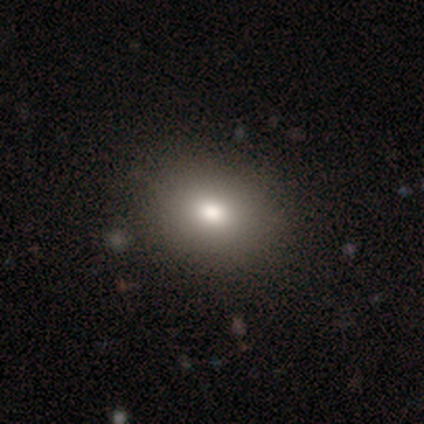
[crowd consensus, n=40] Smooth or featured? smooth (80%)
How rounded? in between (66%)
Merging? none (89%)